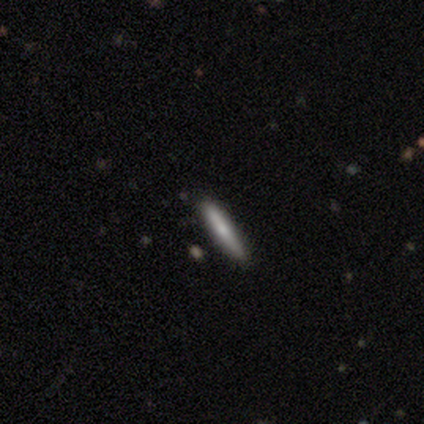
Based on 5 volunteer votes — This is clearly a smooth galaxy (100%). How rounded: clearly cigar-shaped (100%). Merging: clearly none (100%).